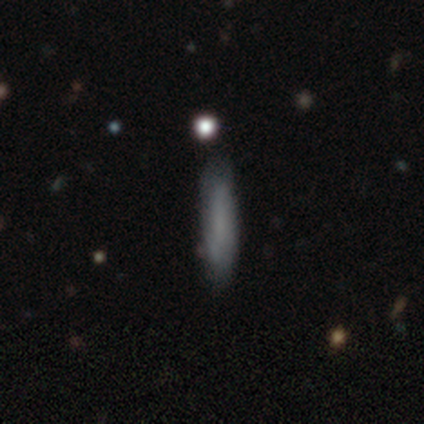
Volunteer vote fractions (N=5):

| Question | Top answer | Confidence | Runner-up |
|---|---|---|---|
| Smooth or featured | smooth | 80% | featured or disk (20%) |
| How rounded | cigar-shaped | 100% | — |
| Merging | none | 80% | minor disturbance (20%) |